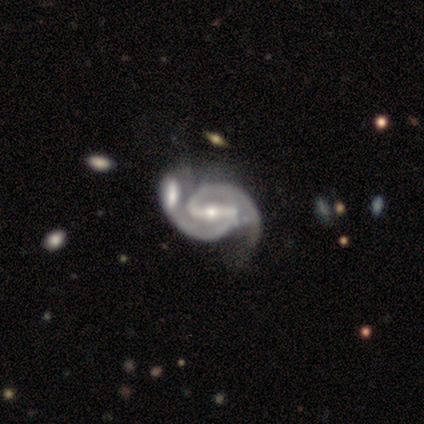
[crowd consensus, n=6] A featured or disk galaxy (100%) with a strong bar (83%), 2 (100%) tight (50%, tied with medium) spiral arms (100%) and a moderate central bulge (50%). Merging: merger (50%).